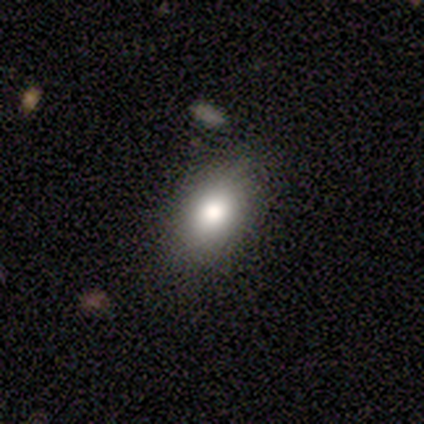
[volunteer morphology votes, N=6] type=smooth (83%); roundness=in between (100%); merging=none (100%).